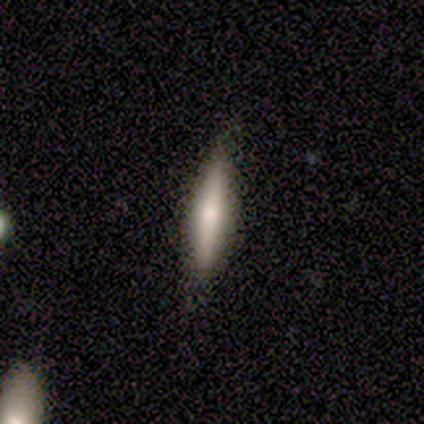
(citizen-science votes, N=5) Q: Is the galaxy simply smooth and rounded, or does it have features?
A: smooth — 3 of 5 (60%).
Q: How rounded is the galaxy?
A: cigar-shaped — 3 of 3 (100%).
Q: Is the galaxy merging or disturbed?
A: none — 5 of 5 (100%).